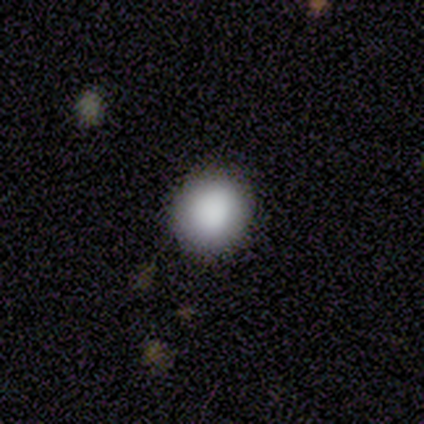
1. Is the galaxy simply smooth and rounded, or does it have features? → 100% smooth, 0% featured or disk, 0% star or artifact.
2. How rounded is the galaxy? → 100% round, 0% in between, 0% cigar-shaped.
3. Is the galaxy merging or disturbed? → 80% none, 20% minor disturbance, 0% major disturbance, 0% merger.